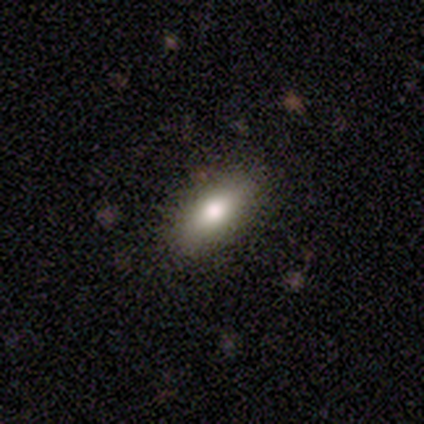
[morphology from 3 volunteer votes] smooth_or_featured: smooth (p=0.33) [tied with: featured or disk p=0.33, star or artifact p=0.33]
how_rounded: in between (p=1.00)
merging: none (p=1.00)